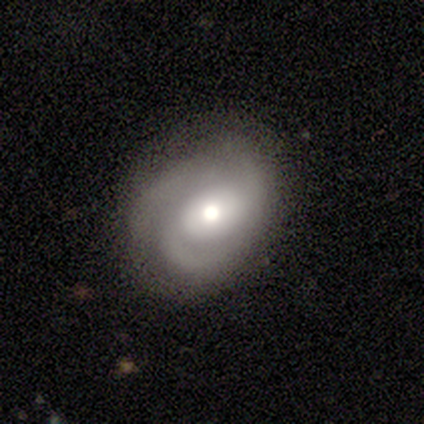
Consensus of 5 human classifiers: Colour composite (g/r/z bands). It shows a featured or disk galaxy (100%) with no bar (80%), 3 (50%) medium (75%) spiral arms (80%) and a large central bulge (40%, tied with moderate). Merging: none (100%).